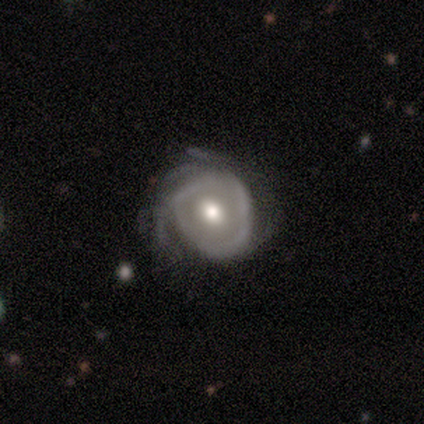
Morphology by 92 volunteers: Smooth or featured? featured or disk (84%)
Edge-on disk? no (91%)
Bar? no (81%)
Spiral arms? yes (76%)
Spiral winding? tight (66%)
Spiral arm count? can't tell (45%)
Bulge size? moderate (79%)
Merging? minor disturbance (48%)